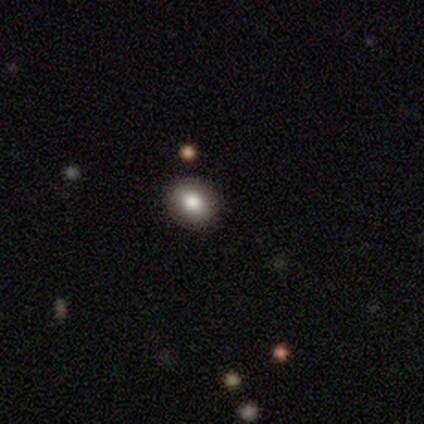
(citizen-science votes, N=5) A smooth galaxy with no disk features (80%) that is round (50%, tied with in between). Merging: none (75%).